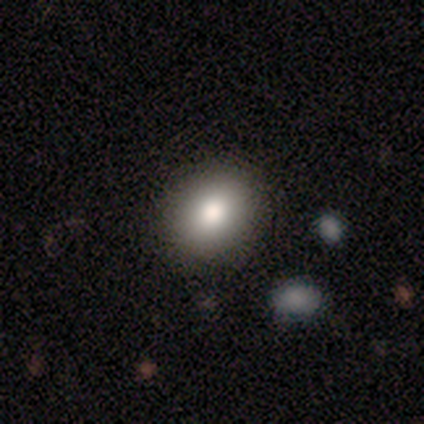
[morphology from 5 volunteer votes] Volunteers were most divided on "how rounded": round: 60%, in between: 40%, cigar-shaped: 0%. More confident: smooth or featured — smooth (100%); merging — none (80%).